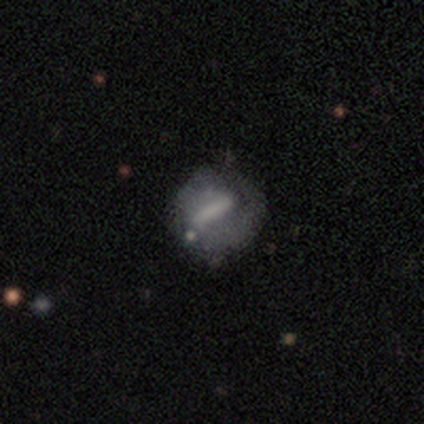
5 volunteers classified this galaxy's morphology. Q: Smooth or featured?
A: smooth (80%); runner-up: featured or disk (20%)
Q: How rounded?
A: in between (50%); runner-up: round (25%)
Q: Merging?
A: none (60%); runner-up: minor disturbance (20%)